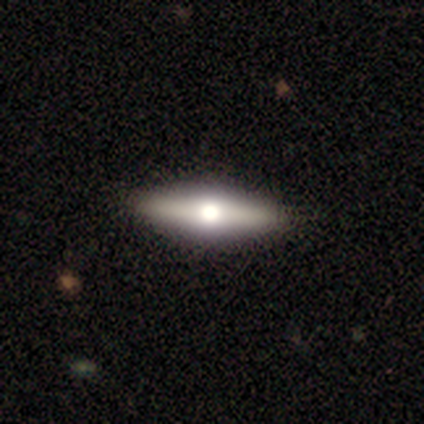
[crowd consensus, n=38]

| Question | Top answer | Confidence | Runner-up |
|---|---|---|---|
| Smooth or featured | featured or disk | 58% | smooth (42%) |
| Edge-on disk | yes | 91% | no (9%) |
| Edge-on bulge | rounded | 80% | boxy (20%) |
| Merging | none | 66% | minor disturbance (5%) |